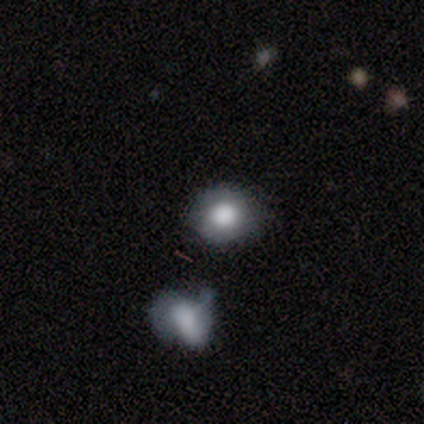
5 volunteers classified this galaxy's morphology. Smooth or featured? 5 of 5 (100%) said smooth. How rounded? 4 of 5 (80%) said round. Merging? 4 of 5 (80%) said none.